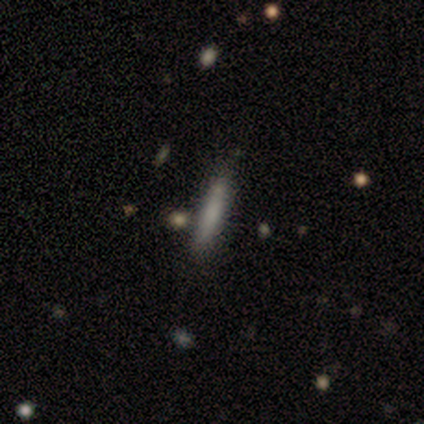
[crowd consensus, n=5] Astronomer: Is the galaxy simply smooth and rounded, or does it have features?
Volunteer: smooth — 80%.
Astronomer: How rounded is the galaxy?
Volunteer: cigar-shaped — 75%.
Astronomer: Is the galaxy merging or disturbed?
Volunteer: none — 100%.